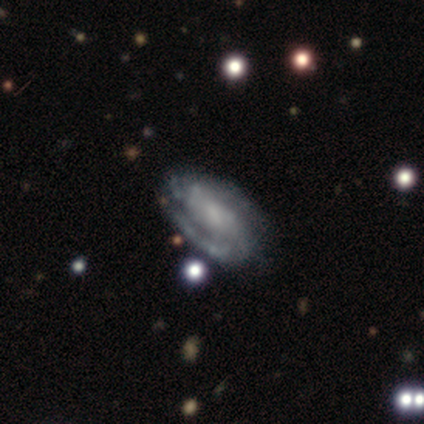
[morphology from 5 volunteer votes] Q: Smooth or featured?
A: featured or disk (100%)
Q: Edge-on disk?
A: no (100%)
Q: Bar?
A: weak (40%); tied with: no (40%)
Q: Spiral arms?
A: yes (100%)
Q: Spiral winding?
A: tight (40%); tied with: medium (40%)
Q: Spiral arm count?
A: 2 (40%); tied with: can't tell (40%)
Q: Bulge size?
A: small (40%); runner-up: large (20%)
Q: Merging?
A: none (60%); runner-up: minor disturbance (40%)